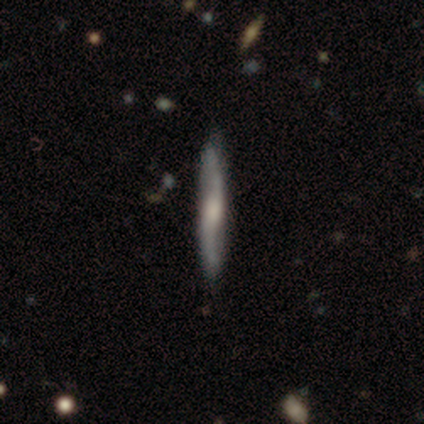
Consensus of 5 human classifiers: Smooth or featured? 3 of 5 (60%) said smooth. How rounded? 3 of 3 (100%) said cigar-shaped. Merging? 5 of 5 (100%) said none.